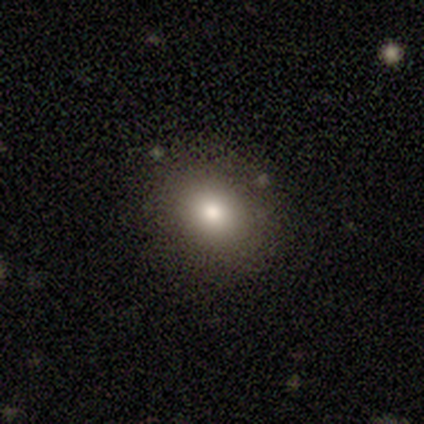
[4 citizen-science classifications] Smooth or featured? 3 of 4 (75%) said smooth. How rounded? 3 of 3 (100%) said round. Merging? 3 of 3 (100%) said none.